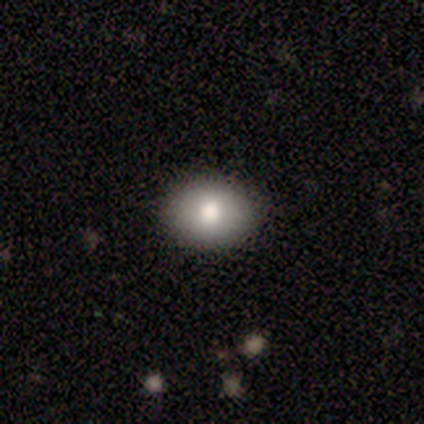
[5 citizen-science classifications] Morphology: type=smooth (100%); roundness=in between (60%); merging=none (100%).